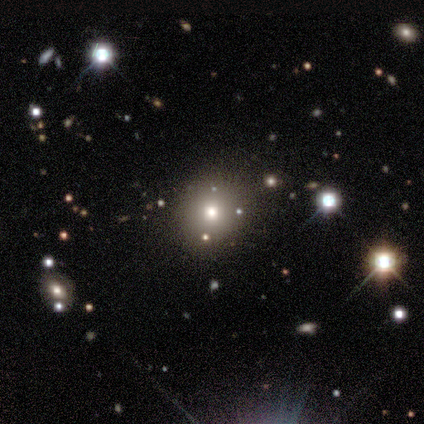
Smooth or featured? 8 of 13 (62%) said smooth. How rounded? 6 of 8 (75%) said round. Merging? 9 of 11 (82%) said none.